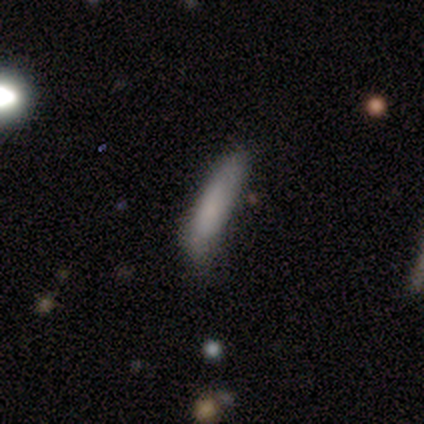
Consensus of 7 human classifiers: Q: Smooth or featured?
A: smooth (86%); runner-up: featured or disk (14%)
Q: How rounded?
A: in between (50%); tied with: cigar-shaped (50%)
Q: Merging?
A: minor disturbance (71%); runner-up: none (29%)